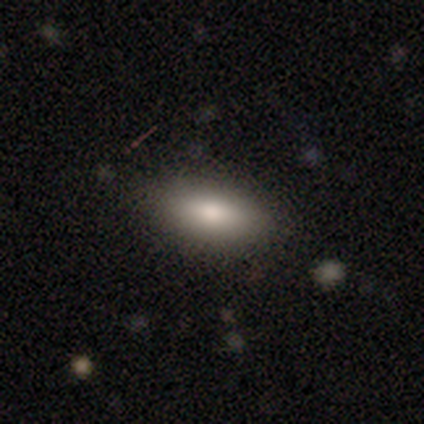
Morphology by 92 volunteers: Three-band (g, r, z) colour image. It shows a smooth galaxy with no disk features (82%) that is in between round and cigar-shaped (85%). Merging: none (85%).